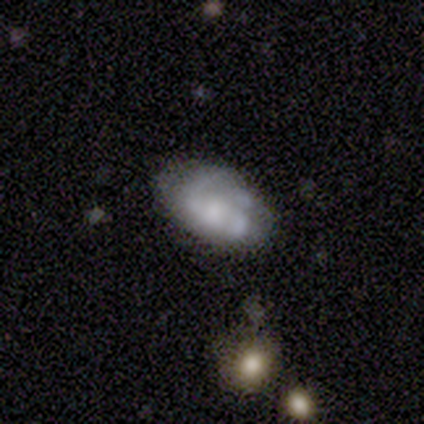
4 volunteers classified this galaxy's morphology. A smooth galaxy with no disk features (50%, tied with featured or disk) that is in between round and cigar-shaped (100%). Merging: none (50%, tied with minor disturbance).